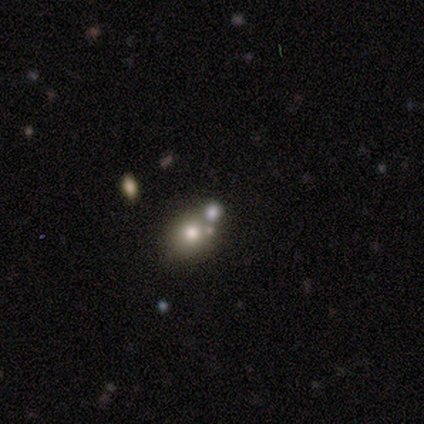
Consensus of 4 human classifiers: featured or disk 50%, smooth 25%, star or artifact 25%. Down the decision tree: edge-on disk — no (100%); bar — no (100%); spiral arms — no (100%); bulge size — large (50%, tied with moderate); merging — none (67%).